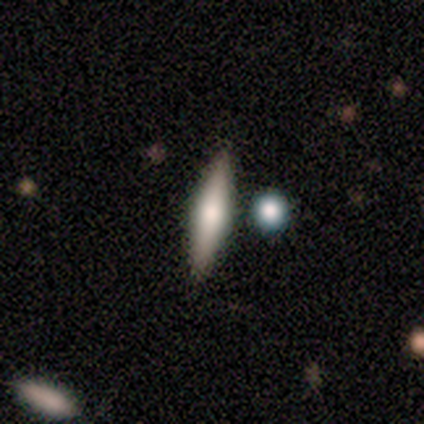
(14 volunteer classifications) Morphology: type=smooth (50%, tied with featured or disk); roundness=cigar-shaped (71%); merging=none (93%).